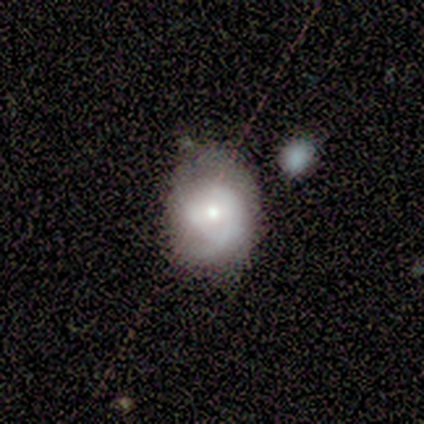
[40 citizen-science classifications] smooth_or_featured: featured or disk (p=0.65) [alt: smooth p=0.33]
disk_edge_on: no (p=1.00)
bar: no (p=0.73) [alt: weak p=0.23]
has_spiral_arms: yes (p=0.73) [alt: no p=0.27]
spiral_winding: tight (p=0.53) [alt: medium p=0.26]
spiral_arm_count: 2 (p=0.37) [alt: 1 p=0.32]
bulge_size: moderate (p=0.46) [tied with: small p=0.46]
merging: none (p=0.18) [tied with: minor disturbance p=0.18]